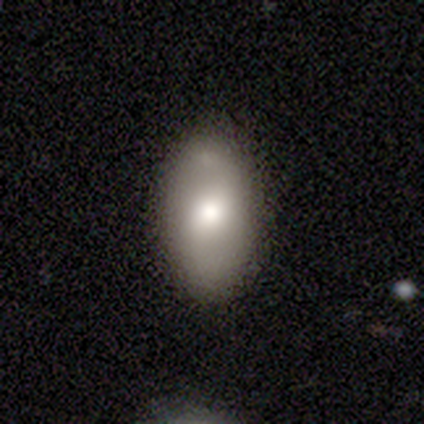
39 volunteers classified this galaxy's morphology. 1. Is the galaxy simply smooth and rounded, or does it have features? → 59% smooth, 31% featured or disk, 10% star or artifact.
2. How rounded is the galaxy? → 91% in between, 4% round, 4% cigar-shaped.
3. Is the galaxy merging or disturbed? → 80% none, 11% major disturbance, 6% minor disturbance, 3% merger.